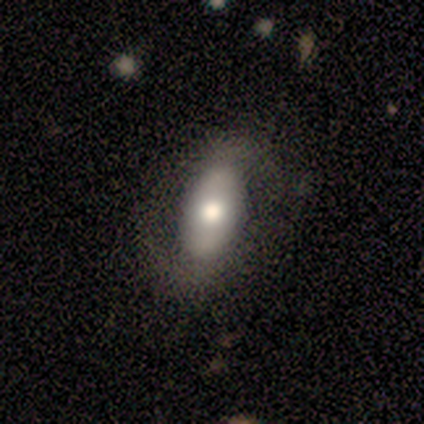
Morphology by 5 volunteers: Smooth or featured: featured or disk — 40% (tied with star or artifact — 40%)
Edge-on disk: yes — 50% (tied with no — 50%)
Edge-on bulge: none — 100%
Merging: none — 33% (tied with minor disturbance — 33%; major disturbance — 33%)